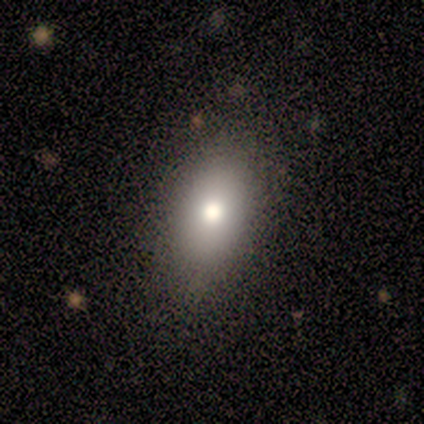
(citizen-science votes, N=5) Smooth or featured: smooth — 100%
How rounded: in between — 100%
Merging: none — 80% (minor disturbance — 20%)